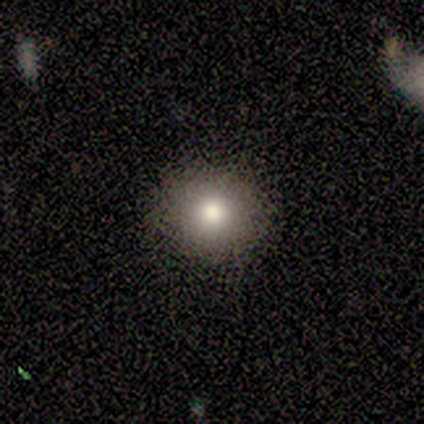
smooth_or_featured: smooth (p=0.40) [tied with: star or artifact p=0.40]
how_rounded: round (p=0.50) [tied with: in between p=0.50]
merging: none (p=0.33) [tied with: minor disturbance p=0.33, major disturbance p=0.33]